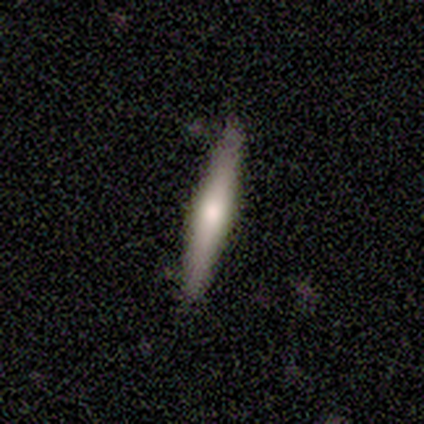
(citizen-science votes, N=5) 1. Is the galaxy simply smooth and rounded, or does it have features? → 80% smooth, 20% featured or disk, 0% star or artifact.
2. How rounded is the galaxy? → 100% cigar-shaped, 0% round, 0% in between.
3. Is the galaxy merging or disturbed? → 100% none, 0% minor disturbance, 0% major disturbance, 0% merger.